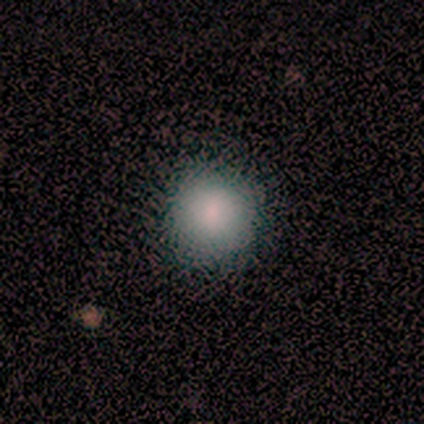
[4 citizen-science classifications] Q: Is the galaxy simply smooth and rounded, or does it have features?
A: smooth — 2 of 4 (50%, tied with featured or disk).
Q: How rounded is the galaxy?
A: round — 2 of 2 (100%).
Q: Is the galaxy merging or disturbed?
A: none — 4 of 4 (100%).